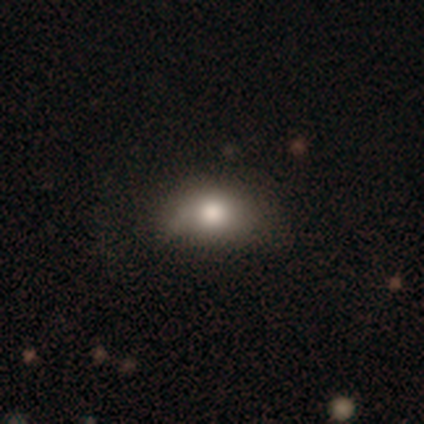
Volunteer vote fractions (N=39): Morphology: type=smooth (72%); roundness=in between (79%); merging=none (45%).